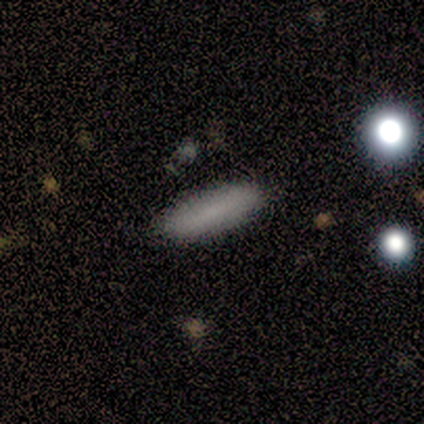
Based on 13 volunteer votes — smooth 77%, featured or disk 15%, star or artifact 8%. Down the decision tree: how rounded — in between (60%); merging — none (83%).